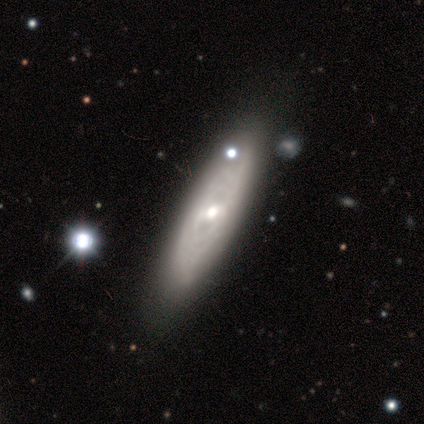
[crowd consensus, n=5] Volunteers were most divided on "how rounded": in between: 60%, cigar-shaped: 40%, round: 0%. More confident: smooth or featured — smooth (100%); merging — none (60%).